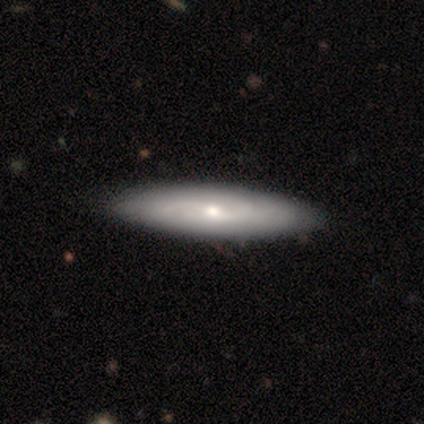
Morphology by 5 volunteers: Smooth or featured?
  - smooth: 60% *
  - featured or disk: 40%
  - star or artifact: 0%
How rounded?
  - cigar-shaped: 67% *
  - in between: 33%
  - round: 0%
Merging?
  - none: 100% *
  - minor disturbance: 0%
  - major disturbance: 0%
  - merger: 0%